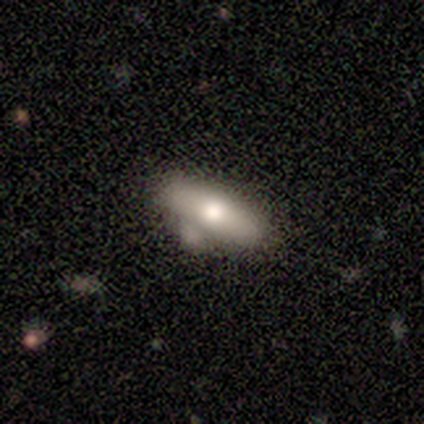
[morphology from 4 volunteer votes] Overall: smooth (50%, tied with featured or disk). How rounded: in between (100%). Merging: none (75%).